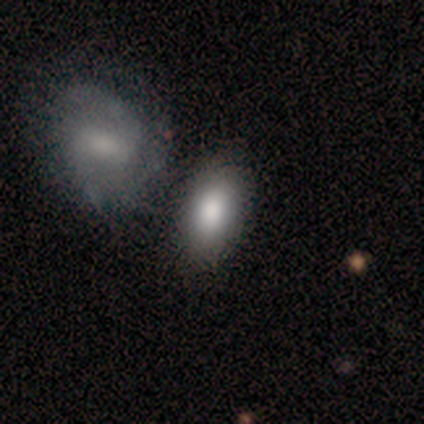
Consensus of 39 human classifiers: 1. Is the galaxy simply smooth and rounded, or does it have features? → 85% smooth, 13% featured or disk, 3% star or artifact.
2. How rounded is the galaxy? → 85% in between, 12% round, 3% cigar-shaped.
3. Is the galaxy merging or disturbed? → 45% none, 32% merger, 3% minor disturbance, 0% major disturbance.